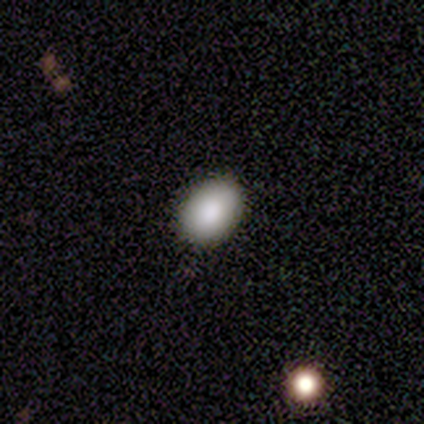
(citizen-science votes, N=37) Smooth or featured: smooth — 86% (featured or disk — 8%)
How rounded: in between — 78% (round — 22%)
Merging: none — 94% (minor disturbance — 6%)